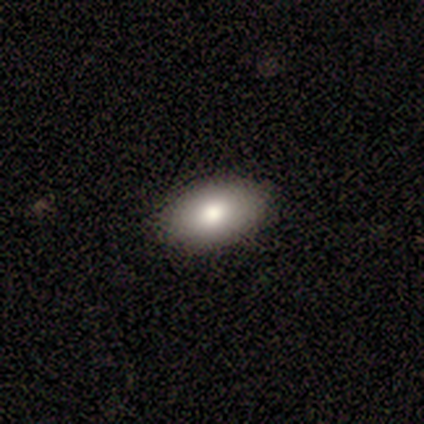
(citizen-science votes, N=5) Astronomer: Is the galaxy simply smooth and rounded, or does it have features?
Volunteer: smooth — 80%.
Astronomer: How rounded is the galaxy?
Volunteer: in between — 100%.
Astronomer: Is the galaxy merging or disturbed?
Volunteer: none — 100%.